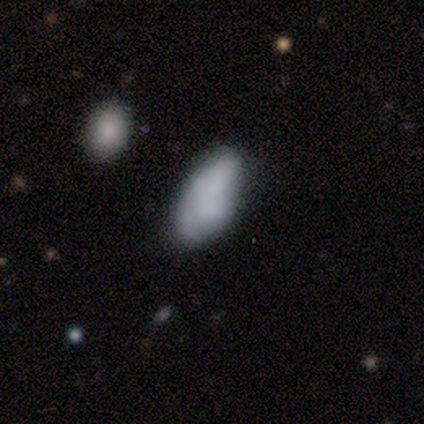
Smooth or featured: smooth — 60% (featured or disk — 40%)
How rounded: in between — 100%
Merging: none — 60% (minor disturbance — 40%)